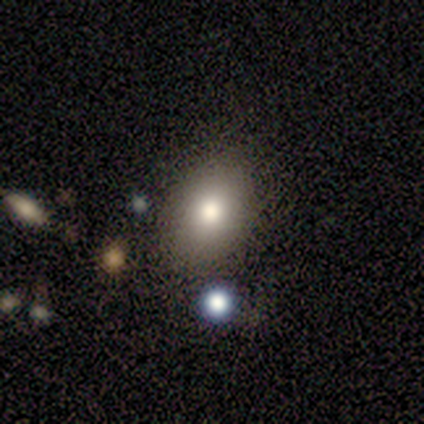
A smooth galaxy with no disk features (100%) that is in between round and cigar-shaped (100%).

Vote fractions:
- Smooth or featured? smooth: 100% / featured or disk: 0% / star or artifact: 0%
- How rounded? in between: 100% / round: 0% / cigar-shaped: 0%
- Merging? none: 60% / minor disturbance: 40% / major disturbance: 0% / merger: 0%